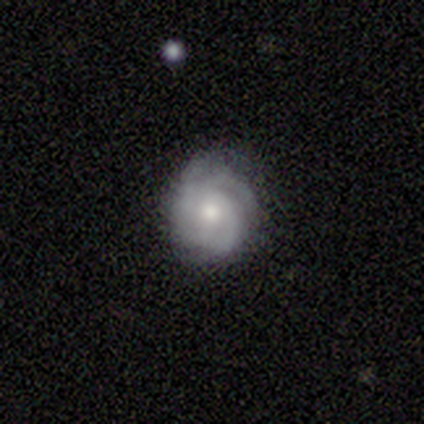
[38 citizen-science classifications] Smooth or featured? 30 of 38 (79%) said featured or disk. Edge-on disk? 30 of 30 (100%) said no. Bar? 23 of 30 (77%) said no. Spiral arms? 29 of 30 (97%) said yes. Spiral winding? 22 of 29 (76%) said tight. Spiral arm count? 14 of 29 (48%) said 3. Bulge size? 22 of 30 (73%) said moderate. Merging? 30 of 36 (83%) said none.